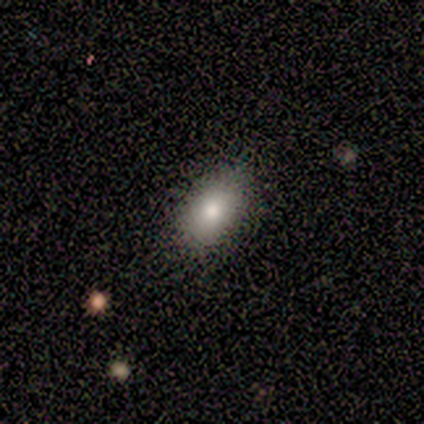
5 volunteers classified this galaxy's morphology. Volunteers were most divided on "merging": none: 80%, minor disturbance: 20%, major disturbance: 0%, merger: 0%. More confident: smooth or featured — smooth (100%); how rounded — in between (100%).